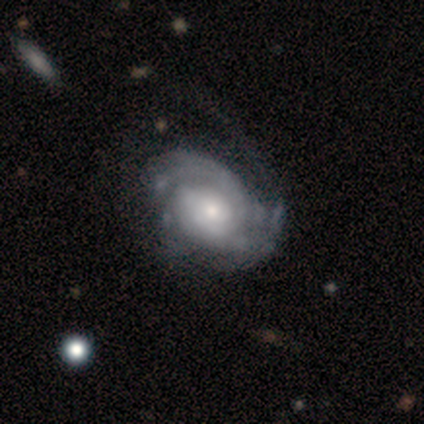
Smooth or featured?
  - featured or disk: 100% *
  - smooth: 0%
  - star or artifact: 0%
Edge-on disk?
  - no: 100% *
  - yes: 0%
Bar?
  - no: 80% *
  - weak: 20%
  - strong: 0%
Spiral arms?
  - yes: 100% *
  - no: 0%
Spiral winding?
  - medium: 40% * (tied)
  - loose: 40% * (tied)
  - tight: 20%
Spiral arm count?
  - 2: 40% * (tied)
  - can't tell: 40% * (tied)
  - 1: 20%
  - 3: 0%
  - 4: 0%
  - more than 4: 0%
Bulge size?
  - moderate: 40% * (tied)
  - small: 40% * (tied)
  - large: 20%
  - dominant: 0%
  - none: 0%
Merging?
  - minor disturbance: 60% *
  - none: 20%
  - major disturbance: 20%
  - merger: 0%